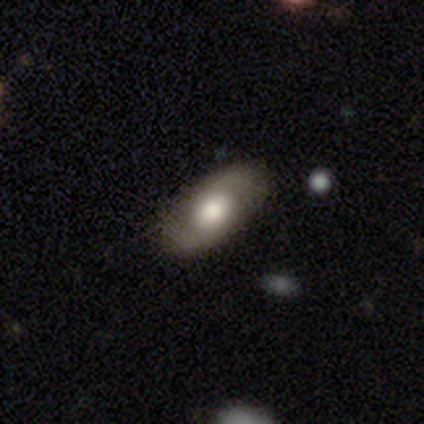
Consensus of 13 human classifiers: Smooth or featured: featured or disk — 69% (smooth — 31%)
Edge-on disk: no — 100%
Bar: no — 100%
Spiral arms: yes — 89% (no — 11%)
Spiral winding: loose — 50% (tight — 25%)
Spiral arm count: 2 — 75% (1 — 12%)
Bulge size: large — 56% (moderate — 44%)
Merging: none — 92% (minor disturbance — 8%)